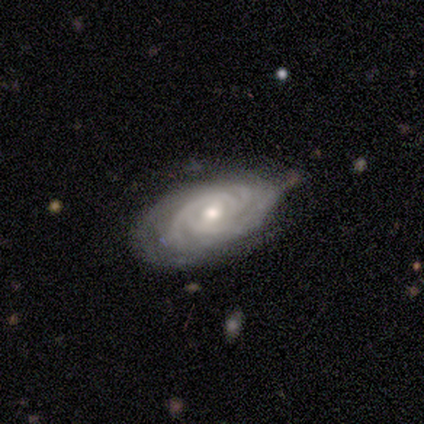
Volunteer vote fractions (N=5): This is clearly a featured or disk galaxy (100%). It is clearly not viewed edge-on (80%). Bar: likely no (75%). Spiral arm pattern: clearly yes (100%). Spiral arm count: likely 3 (75%). Spiral winding: likely tight (75%). Central bulge: possibly moderate (50%, tied with small). Merging: likely none (60%).